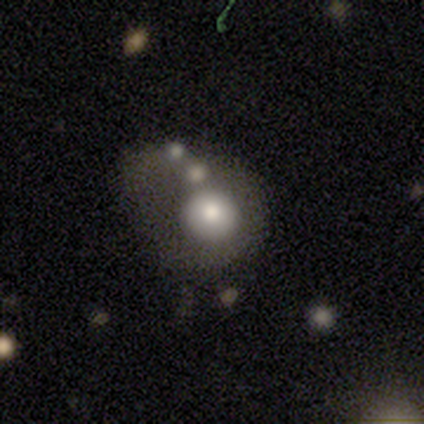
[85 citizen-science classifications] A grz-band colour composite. It shows a smooth galaxy with no disk features (64%) that is round (74%). Merging: major disturbance (31%).